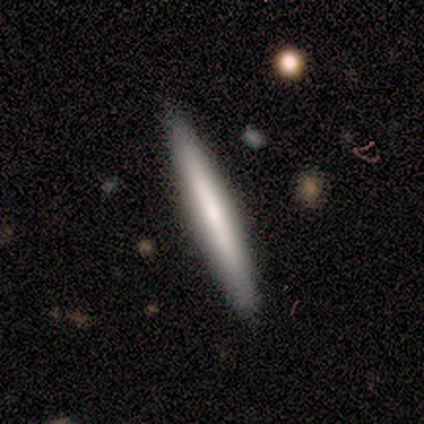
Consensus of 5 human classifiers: Q: Smooth or featured?
A: smooth (60%); runner-up: featured or disk (40%)
Q: How rounded?
A: cigar-shaped (100%)
Q: Merging?
A: none (80%); runner-up: minor disturbance (20%)